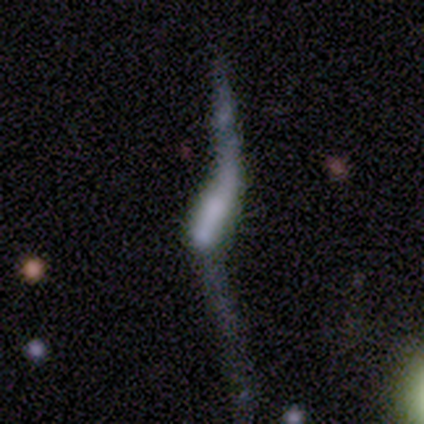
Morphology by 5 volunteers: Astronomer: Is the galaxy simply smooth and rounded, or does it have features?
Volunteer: featured or disk — 80%.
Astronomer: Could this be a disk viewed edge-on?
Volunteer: no — 100%.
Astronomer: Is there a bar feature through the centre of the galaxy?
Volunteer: no — 75%.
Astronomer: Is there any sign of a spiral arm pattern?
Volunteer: yes — 75%.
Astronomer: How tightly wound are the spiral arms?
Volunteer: loose — 100%.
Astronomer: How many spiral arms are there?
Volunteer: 2 — 67%.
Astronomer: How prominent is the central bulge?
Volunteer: none — 75%.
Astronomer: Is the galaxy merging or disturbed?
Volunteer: none — 25%, tied with minor disturbance, major disturbance and merger at 25%.